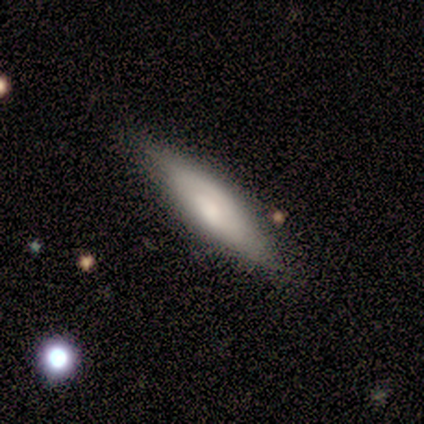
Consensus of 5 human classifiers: This appears to be a featured or disk galaxy (60%) viewed edge-on (67%) with a boxy central bulge (50%, tied with rounded). Merging: none (60%).